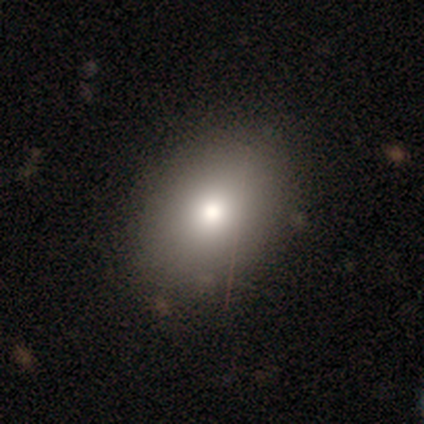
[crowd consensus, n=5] Smooth or featured? smooth (80%)
How rounded? in between (100%)
Merging? none (100%)